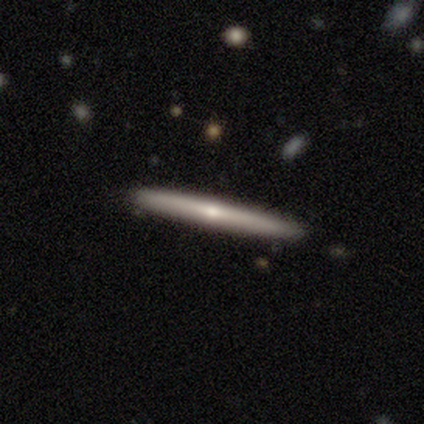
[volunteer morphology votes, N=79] Q: Smooth or featured?
A: featured or disk (66%); runner-up: smooth (33%)
Q: Edge-on disk?
A: yes (98%); runner-up: no (2%)
Q: Edge-on bulge?
A: rounded (67%); runner-up: none (31%)
Q: Merging?
A: none (64%); runner-up: minor disturbance (6%)